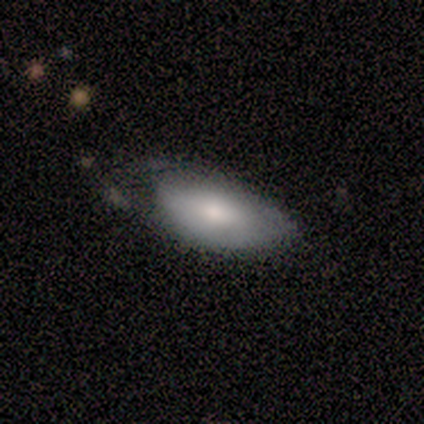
Q: Smooth or featured?
A: smooth (50%); tied with: featured or disk (50%)
Q: How rounded?
A: in between (100%)
Q: Merging?
A: major disturbance (75%); runner-up: none (25%)